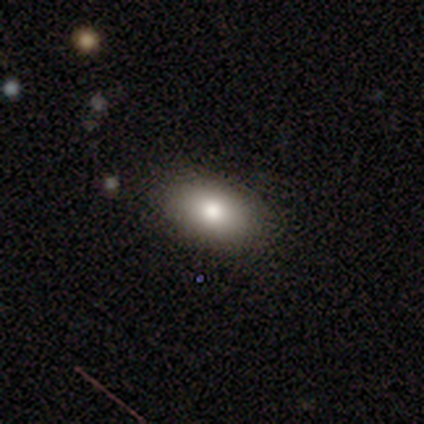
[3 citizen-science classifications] This appears to be a smooth galaxy with no disk features (100%) that is in between round and cigar-shaped (100%). Merging: none (100%).